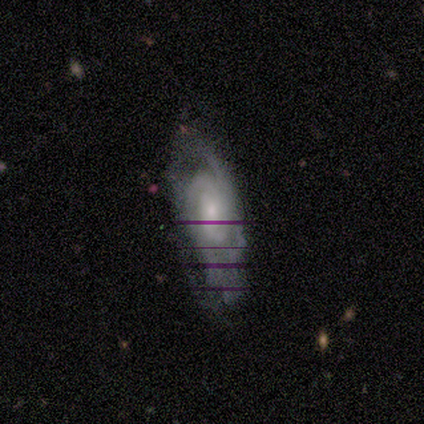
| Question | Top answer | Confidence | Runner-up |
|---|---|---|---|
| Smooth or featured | featured or disk | 100% | — |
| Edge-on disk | no | 100% | — |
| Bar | no | 75% | weak (25%) |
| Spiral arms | yes | 100% | — |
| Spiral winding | medium | 100% | — |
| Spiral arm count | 2 | 75% | can't tell (25%) |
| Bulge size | moderate | 50% | small (25%) |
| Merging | none | 100% | — |